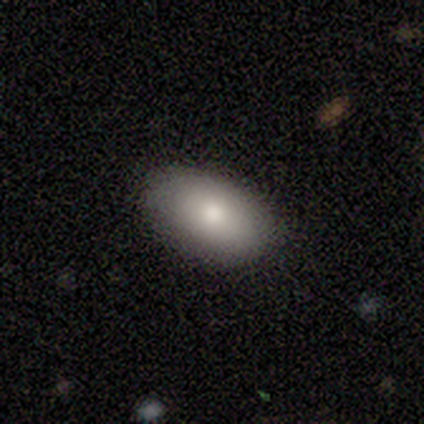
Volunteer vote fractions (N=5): Overall: smooth (80%). How rounded: in between (75%). Merging: none (75%).